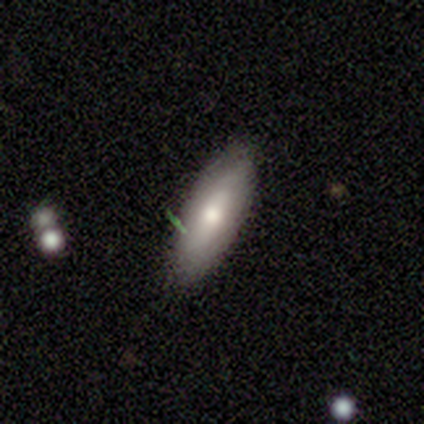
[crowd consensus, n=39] Q: Smooth or featured?
A: smooth (51%); runner-up: featured or disk (33%)
Q: How rounded?
A: in between (50%); tied with: cigar-shaped (50%)
Q: Merging?
A: none (73%); runner-up: minor disturbance (27%)